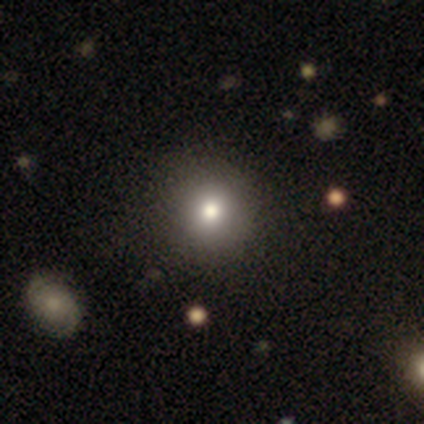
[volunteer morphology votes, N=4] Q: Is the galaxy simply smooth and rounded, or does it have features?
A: smooth — 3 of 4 (75%).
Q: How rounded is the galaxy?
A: round — 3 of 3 (100%).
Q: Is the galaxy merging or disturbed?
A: none — 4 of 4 (100%).